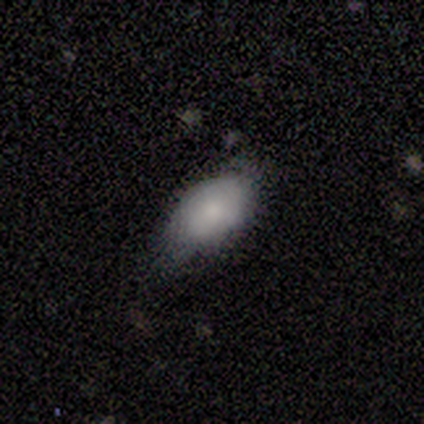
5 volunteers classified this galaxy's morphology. Q: Smooth or featured?
A: smooth (100%)
Q: How rounded?
A: in between (100%)
Q: Merging?
A: minor disturbance (80%); runner-up: none (20%)